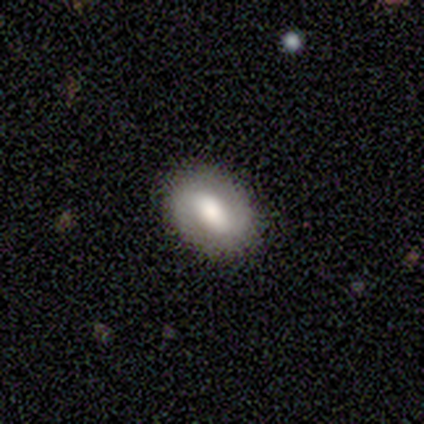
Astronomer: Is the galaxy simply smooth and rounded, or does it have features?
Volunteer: smooth — 60% (runner-up: featured or disk, 40%).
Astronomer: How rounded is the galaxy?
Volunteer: in between — 67%.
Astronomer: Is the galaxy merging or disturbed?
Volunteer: none — 100%.